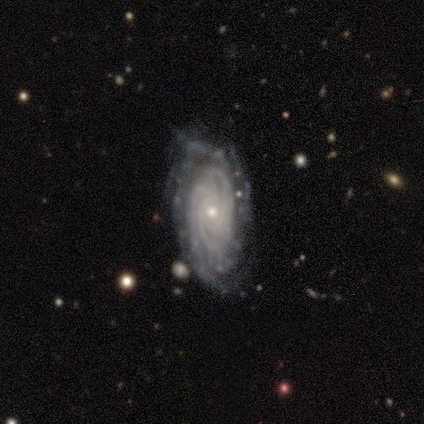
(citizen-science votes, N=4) smooth-or-featured: featured or disk: 100% | smooth: 0% | star or artifact: 0%
  disk-edge-on: no: 100% | yes: 0%
    bar: no: 75% | strong: 25% | weak: 0%
    has-spiral-arms: yes: 100% | no: 0%
      spiral-winding: tight: 75% | medium: 25% | loose: 0%
      spiral-arm-count: can't tell: 50% | 3: 25% | 4: 25% | 1: 0% | 2: 0% | more than 4: 0%
    bulge-size: small: 100% | dominant: 0% | large: 0% | moderate: 0% | none: 0%
  merging: none: 50% | minor disturbance: 25% | major disturbance: 25% | merger: 0%